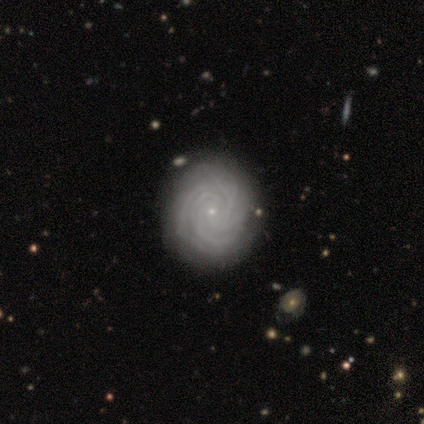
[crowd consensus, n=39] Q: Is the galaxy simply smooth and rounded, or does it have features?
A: featured or disk — 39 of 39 (100%).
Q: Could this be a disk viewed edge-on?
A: no — 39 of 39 (100%).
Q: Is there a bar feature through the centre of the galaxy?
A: no — 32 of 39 (82%).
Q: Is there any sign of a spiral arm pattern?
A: yes — 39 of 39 (100%).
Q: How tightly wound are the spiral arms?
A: tight — 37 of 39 (95%).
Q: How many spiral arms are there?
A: more than 4 — 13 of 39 (33%).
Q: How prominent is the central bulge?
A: small — 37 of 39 (95%).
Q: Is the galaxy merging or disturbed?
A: none — 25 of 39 (64%).